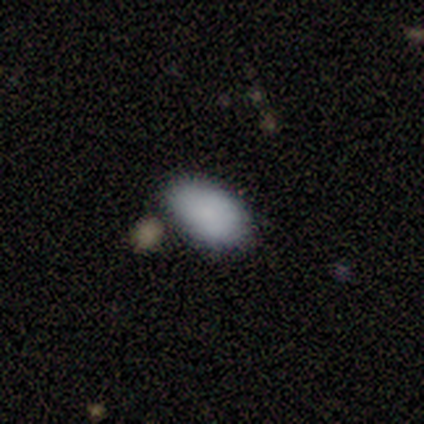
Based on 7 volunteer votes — Volunteers were most divided on "merging": none: 71%, major disturbance: 14%, merger: 14%, minor disturbance: 0%. More confident: smooth or featured — smooth (100%); how rounded — in between (100%).